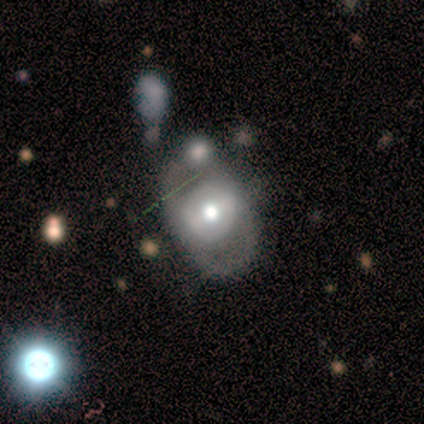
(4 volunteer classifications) Morphology: type=smooth (50%, tied with featured or disk); roundness=round (50%, tied with in between); merging=none (75%).